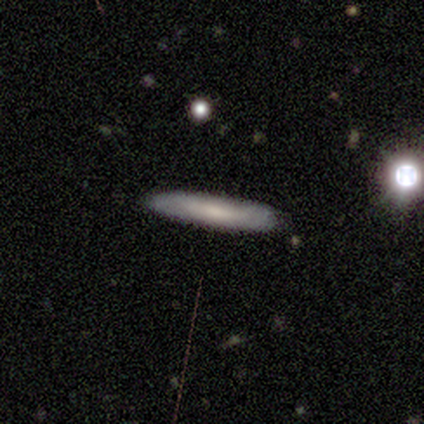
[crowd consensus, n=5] Morphology: type=smooth (60%); roundness=cigar-shaped (67%); merging=none (100%).